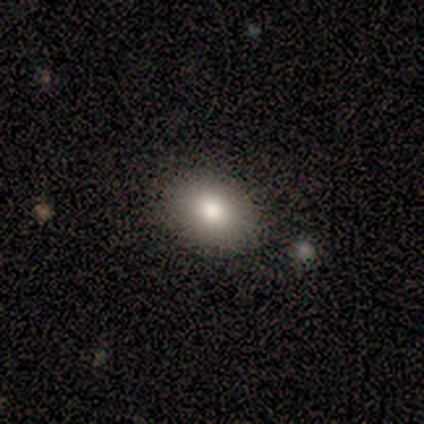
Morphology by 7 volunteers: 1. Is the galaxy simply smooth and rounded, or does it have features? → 71% smooth, 14% featured or disk, 14% star or artifact.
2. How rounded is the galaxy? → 60% in between, 40% round, 0% cigar-shaped.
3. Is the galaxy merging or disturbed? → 100% none, 0% minor disturbance, 0% major disturbance, 0% merger.